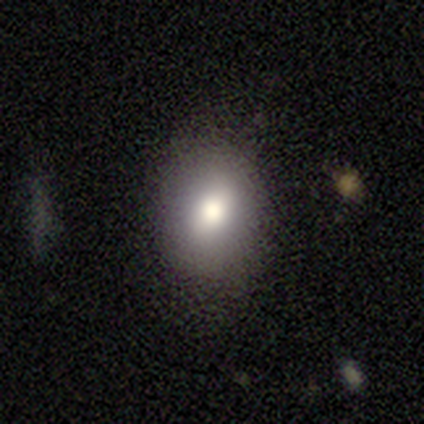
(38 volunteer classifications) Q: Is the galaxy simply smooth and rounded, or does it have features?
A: smooth — 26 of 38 (68%).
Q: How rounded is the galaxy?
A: in between — 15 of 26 (58%).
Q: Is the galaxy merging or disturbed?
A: none — 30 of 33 (91%).